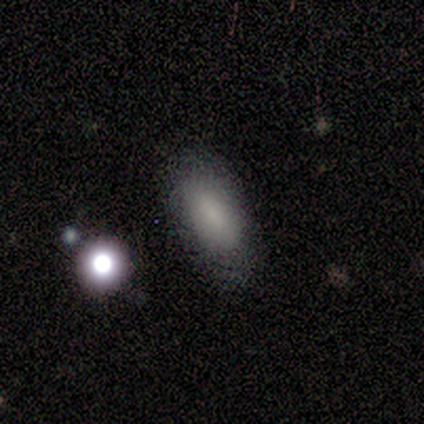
Smooth or featured? smooth (100%)
How rounded? in between (100%)
Merging? none (60%)